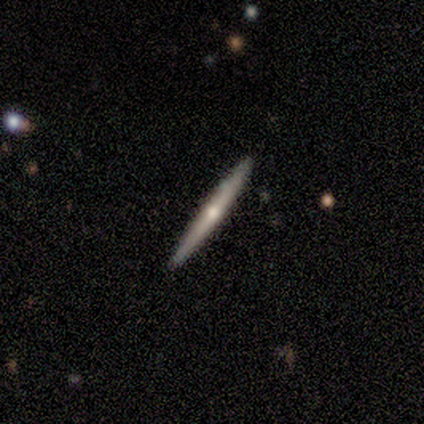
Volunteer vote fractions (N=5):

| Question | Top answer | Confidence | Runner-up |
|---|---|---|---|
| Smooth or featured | smooth | 40% | tied: featured or disk (40%) |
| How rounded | cigar-shaped | 100% | — |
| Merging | none | 75% | minor disturbance (25%) |